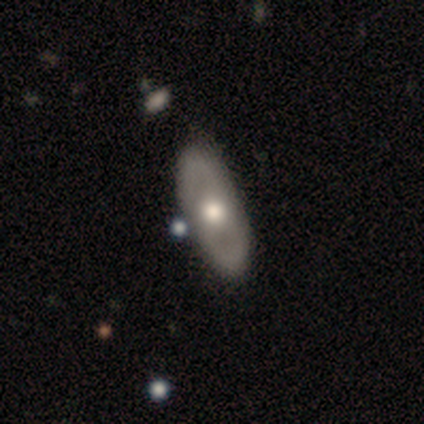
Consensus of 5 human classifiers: Volunteers were most divided on "smooth or featured" (2-way tie): smooth: 40%, featured or disk: 40%, star or artifact: 20%. More confident: how rounded — in between (100%); merging — none (75%).